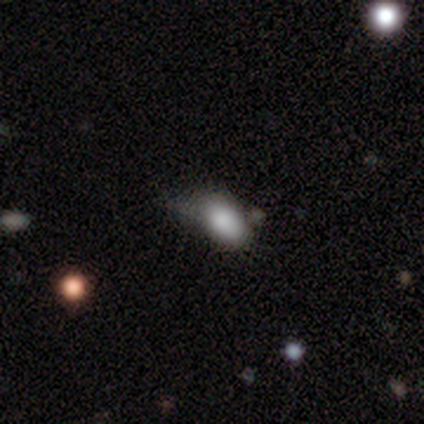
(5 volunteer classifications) This appears to be a smooth galaxy with no disk features (60%) that is in between round and cigar-shaped (67%). Merging: minor disturbance (60%).